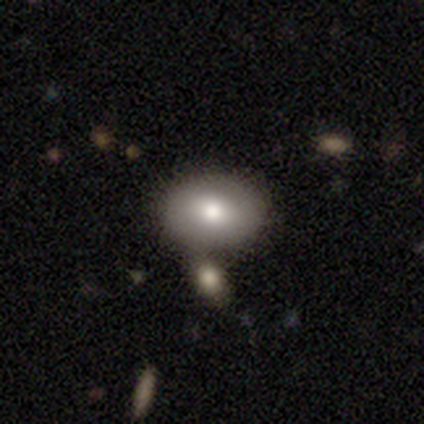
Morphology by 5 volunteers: A smooth galaxy with no disk features (60%) that is in between round and cigar-shaped (67%). Merging: none (60%).